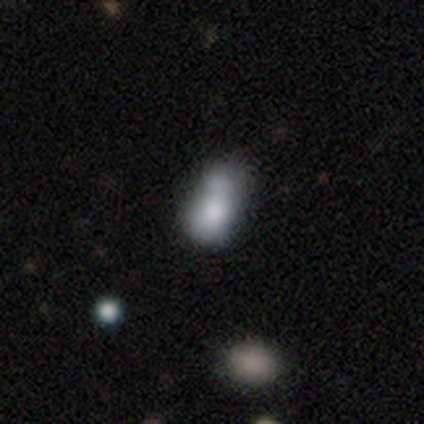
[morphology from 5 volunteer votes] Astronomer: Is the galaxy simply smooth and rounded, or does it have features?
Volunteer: smooth — 40%, tied with featured or disk at 40%.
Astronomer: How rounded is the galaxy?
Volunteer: in between — 100%.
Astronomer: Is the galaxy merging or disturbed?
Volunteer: minor disturbance — 75%.